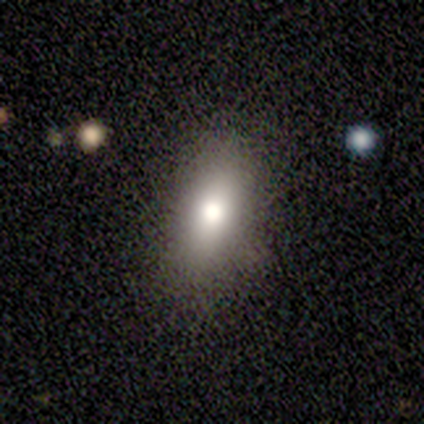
A smooth galaxy with no disk features (80%) that is in between round and cigar-shaped (100%).

Vote fractions:
- Smooth or featured? smooth: 80% / featured or disk: 20% / star or artifact: 0%
- How rounded? in between: 100% / round: 0% / cigar-shaped: 0%
- Merging? none: 80% / minor disturbance: 20% / major disturbance: 0% / merger: 0%